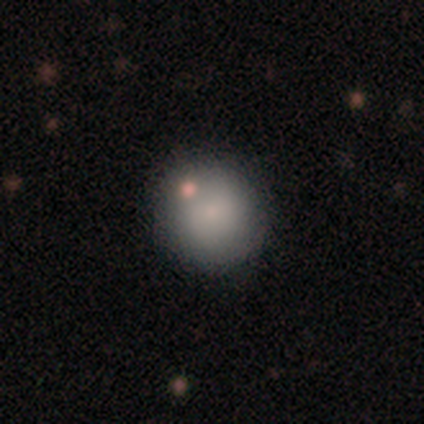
smooth_or_featured: smooth (p=0.50) [alt: featured or disk p=0.25]
how_rounded: round (p=1.00)
merging: none (p=1.00)